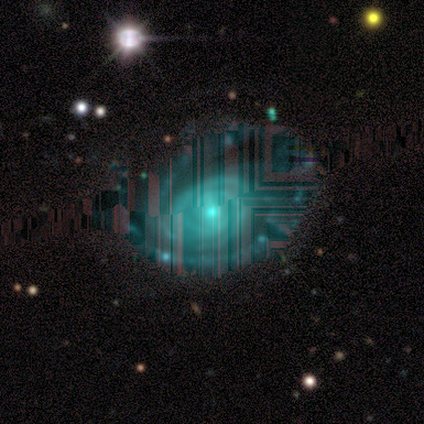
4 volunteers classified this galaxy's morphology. smooth_or_featured: featured or disk (p=0.75) [alt: star or artifact p=0.25]
disk_edge_on: no (p=1.00)
bar: no (p=0.67) [alt: weak p=0.33]
has_spiral_arms: yes (p=1.00)
spiral_winding: tight (p=1.00)
spiral_arm_count: can't tell (p=1.00)
bulge_size: moderate (p=0.67) [alt: small p=0.33]
merging: none (p=1.00)